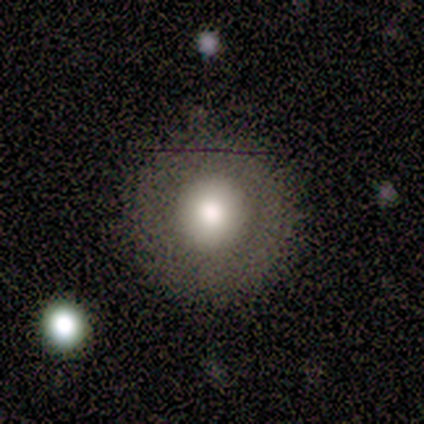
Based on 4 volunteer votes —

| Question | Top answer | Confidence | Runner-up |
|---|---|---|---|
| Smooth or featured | smooth | 100% | — |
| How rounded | round | 100% | — |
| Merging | none | 75% | minor disturbance (25%) |